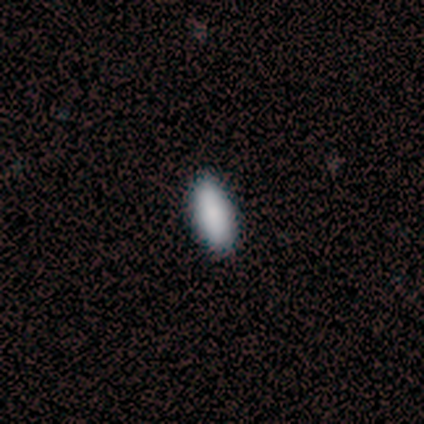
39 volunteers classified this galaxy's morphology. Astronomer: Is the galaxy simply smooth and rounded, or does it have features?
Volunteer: smooth — 97%.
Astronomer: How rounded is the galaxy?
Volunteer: in between — 84%.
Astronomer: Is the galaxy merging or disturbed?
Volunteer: none — 53%.